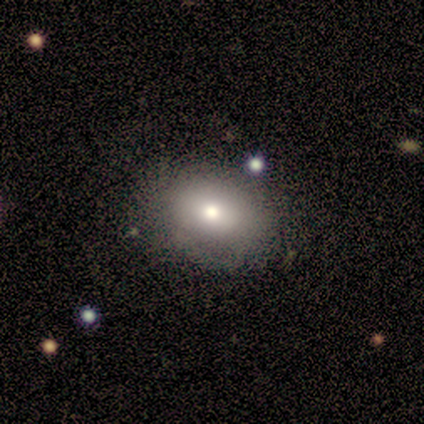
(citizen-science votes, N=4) smooth 50% (tied), featured or disk 50% (tied), star or artifact 0%. Down the decision tree: how rounded — in between (100%); merging — minor disturbance (50%).